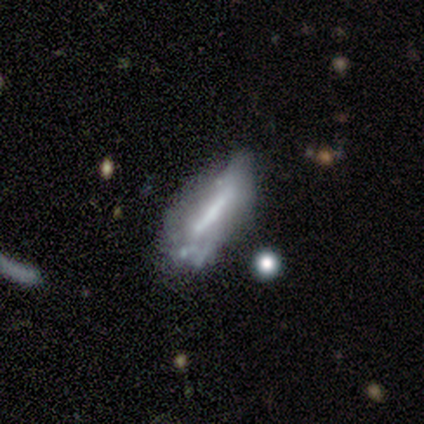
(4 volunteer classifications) This is likely a featured or disk galaxy (75%). It is likely viewed edge-on (67%). Edge-on bulge: possibly boxy (50%, tied with none). Merging: possibly none (50%, tied with minor disturbance).